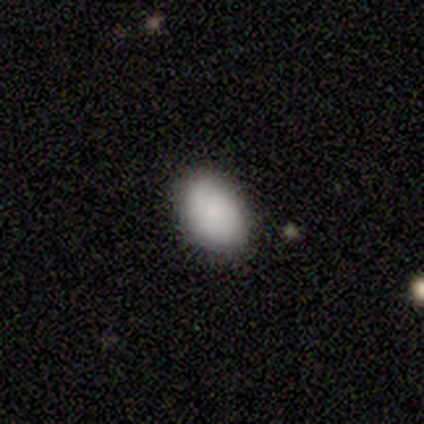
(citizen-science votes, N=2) Consensus on every question: smooth or featured — smooth (100%); how rounded — in between (100%); merging — none (100%).